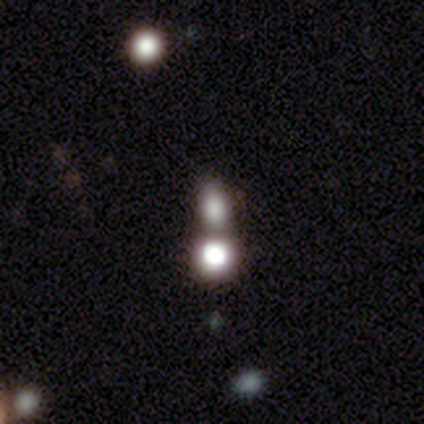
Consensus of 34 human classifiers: Smooth or featured? 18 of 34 (53%) said smooth. How rounded? 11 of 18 (61%) said in between. Merging? 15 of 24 (62%) said merger.